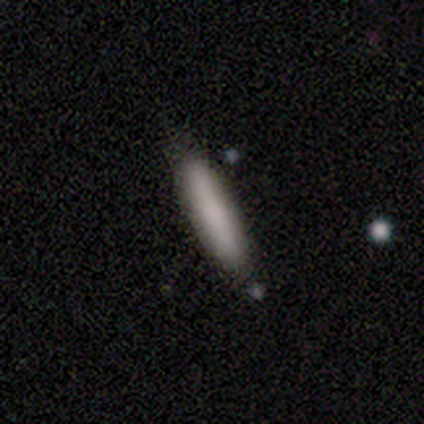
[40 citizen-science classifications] A smooth galaxy with no disk features (92%) that is cigar-shaped (81%).

Vote fractions:
- Smooth or featured? smooth: 92% / featured or disk: 8% / star or artifact: 0%
- How rounded? cigar-shaped: 81% / in between: 19% / round: 0%
- Merging? none: 88% / minor disturbance: 12% / major disturbance: 0% / merger: 0%